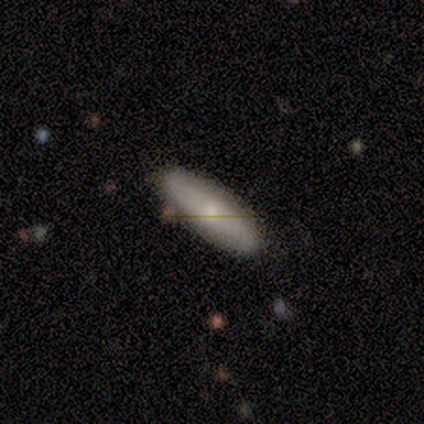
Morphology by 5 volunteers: Smooth or featured? 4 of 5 (80%) said smooth. How rounded? 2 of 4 (50%, tied with cigar-shaped) said in between. Merging? 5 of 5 (100%) said none.